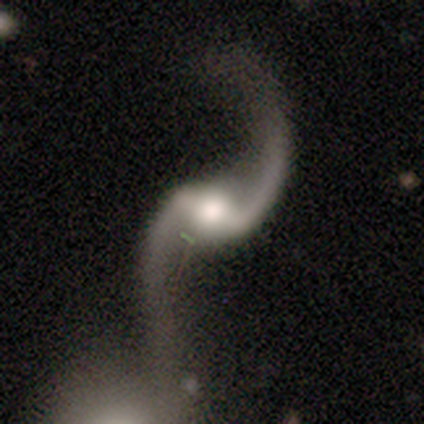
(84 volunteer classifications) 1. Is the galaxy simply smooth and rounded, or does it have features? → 96% featured or disk, 2% star or artifact, 1% smooth.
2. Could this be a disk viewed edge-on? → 98% no, 2% yes.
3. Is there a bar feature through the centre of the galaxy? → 51% weak, 38% strong, 11% no.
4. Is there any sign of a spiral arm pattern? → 96% yes, 4% no.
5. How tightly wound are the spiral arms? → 97% loose, 3% medium, 0% tight.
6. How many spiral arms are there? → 92% 2, 8% 1, 0% 3, 0% 4, 0% more than 4, 0% can't tell.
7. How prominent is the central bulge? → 56% moderate, 30% large, 8% small, 4% dominant, 3% none.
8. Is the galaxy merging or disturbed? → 66% none, 17% merger, 12% minor disturbance, 5% major disturbance.